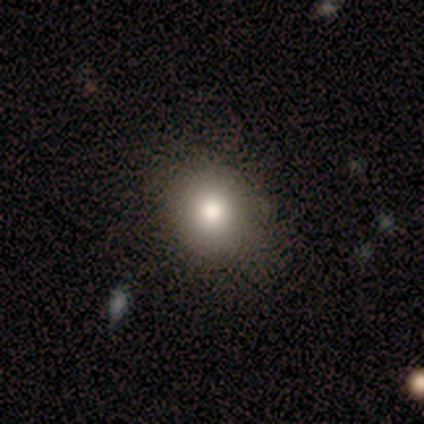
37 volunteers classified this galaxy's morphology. smooth-or-featured: smooth: 81% | star or artifact: 14% | featured or disk: 5%
  how-rounded: round: 87% | in between: 13% | cigar-shaped: 0%
  merging: none: 94% | minor disturbance: 6% | major disturbance: 0% | merger: 0%